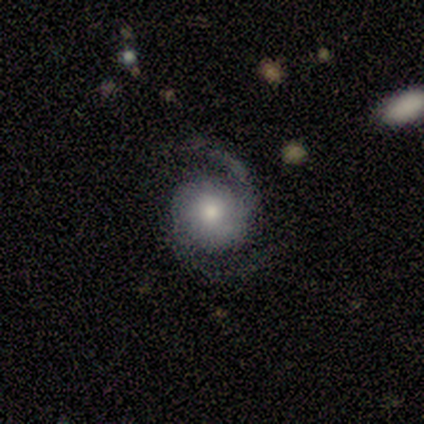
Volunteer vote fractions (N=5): A featured or disk galaxy (80%) with no bar (67%), 2 (100%) medium (67%) spiral arms (100%) and a moderate central bulge (100%).

Vote fractions:
- Smooth or featured? featured or disk: 80% / smooth: 20% / star or artifact: 0%
- Edge-on disk? no: 75% / yes: 25%
- Bar? no: 67% / weak: 33% / strong: 0%
- Spiral arms? yes: 100% / no: 0%
- Spiral winding? medium: 67% / tight: 33% / loose: 0%
- Spiral arm count? 2: 100% / 1: 0% / 3: 0% / 4: 0% / more than 4: 0% / can't tell: 0%
- Bulge size? moderate: 100% / dominant: 0% / large: 0% / small: 0% / none: 0%
- Merging? none: 100% / minor disturbance: 0% / major disturbance: 0% / merger: 0%